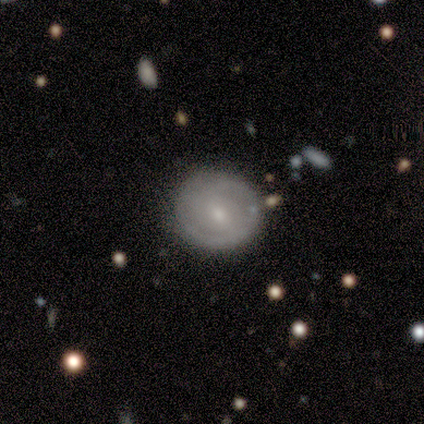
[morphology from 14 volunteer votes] This appears to be a smooth galaxy with no disk features (57%) that is round (88%). Merging: none (79%).